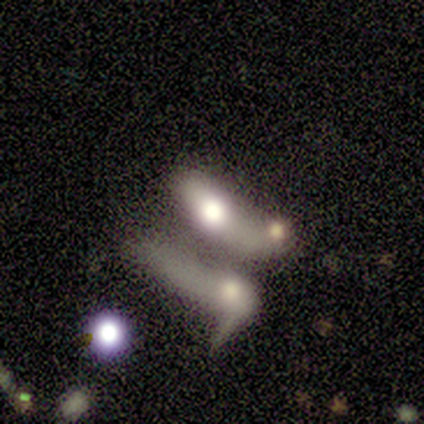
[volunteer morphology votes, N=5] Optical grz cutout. It shows a smooth galaxy with no disk features (60%) that is in between round and cigar-shaped (67%). Merging: merger (80%).